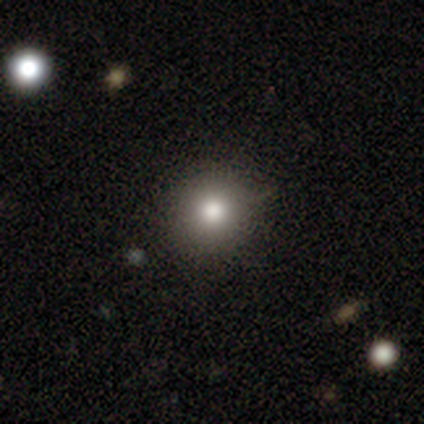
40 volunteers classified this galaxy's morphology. smooth 72%, star or artifact 20%, featured or disk 8%. Down the decision tree: how rounded — round (93%); merging — none (72%).